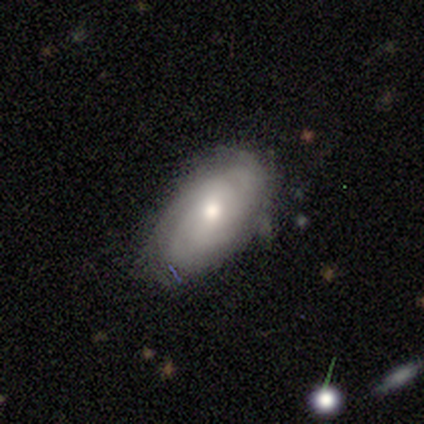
smooth_or_featured: smooth (p=0.50) [tied with: featured or disk p=0.50]
how_rounded: in between (p=1.00)
merging: none (p=0.70) [alt: minor disturbance p=0.20]